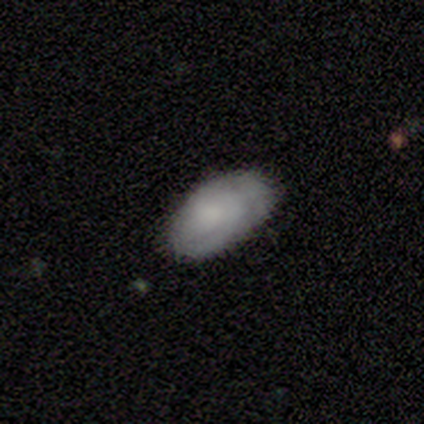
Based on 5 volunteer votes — A smooth galaxy with no disk features (80%) that is in between round and cigar-shaped (100%). Merging: none (60%).